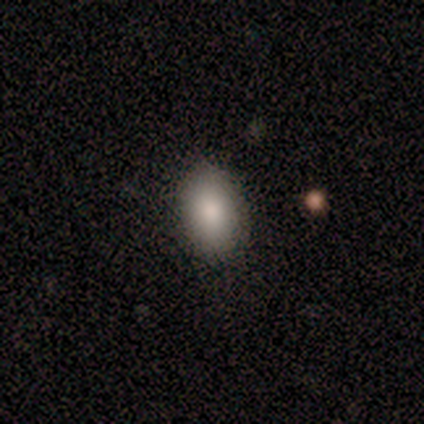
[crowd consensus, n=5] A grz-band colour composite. It shows a smooth galaxy with no disk features (80%) that is in between round and cigar-shaped (75%). Merging: none (75%).